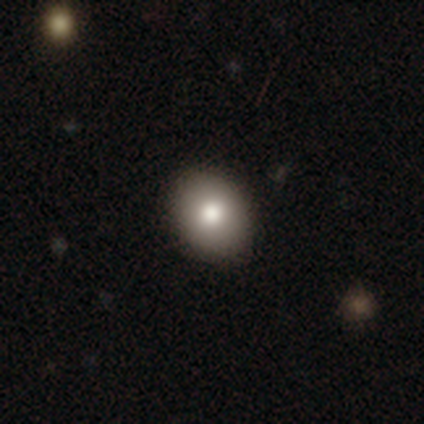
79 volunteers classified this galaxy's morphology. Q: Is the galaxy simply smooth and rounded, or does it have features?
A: smooth — 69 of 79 (87%).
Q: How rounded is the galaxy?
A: in between — 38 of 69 (55%).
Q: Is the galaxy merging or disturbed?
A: none — 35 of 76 (46%).